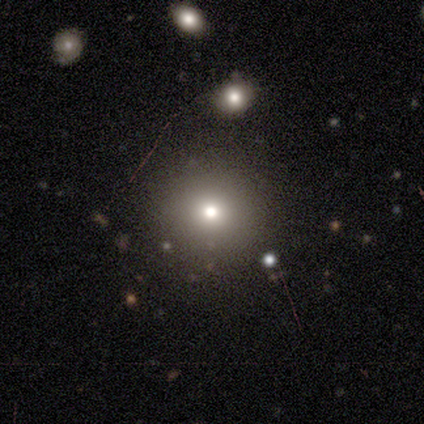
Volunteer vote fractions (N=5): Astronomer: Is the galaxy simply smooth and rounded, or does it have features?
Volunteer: smooth — 60% (runner-up: star or artifact, 40%).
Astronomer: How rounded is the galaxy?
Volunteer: round — 100%.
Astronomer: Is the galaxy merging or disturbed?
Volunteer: none — 100%.